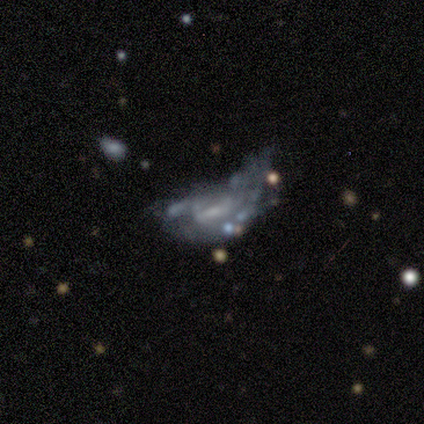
A featured or disk galaxy (92%) with no bar (64%), no spiral arms (64%) and a small central bulge (45%, tied with none). Merging: major disturbance (50%).